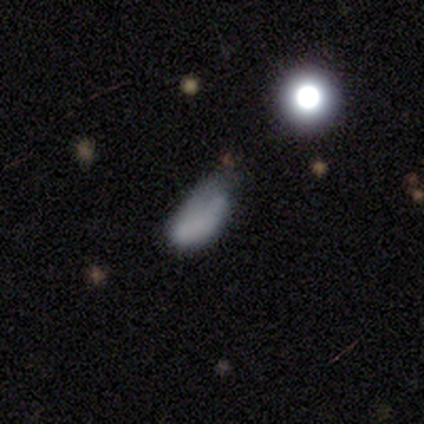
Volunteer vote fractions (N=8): Smooth or featured?
  - smooth: 75% *
  - featured or disk: 12%
  - star or artifact: 12%
How rounded?
  - in between: 83% *
  - cigar-shaped: 17%
  - round: 0%
Merging?
  - major disturbance: 57% *
  - minor disturbance: 43%
  - none: 0%
  - merger: 0%